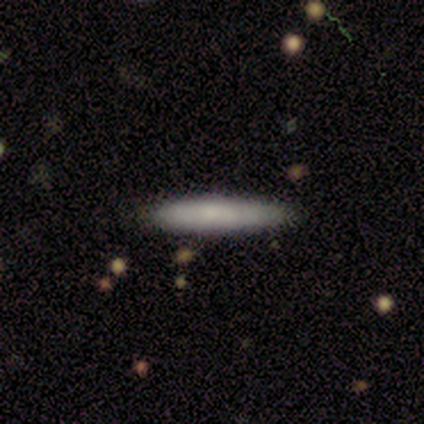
A smooth galaxy with no disk features (80%) that is cigar-shaped (100%). Merging: none (100%).